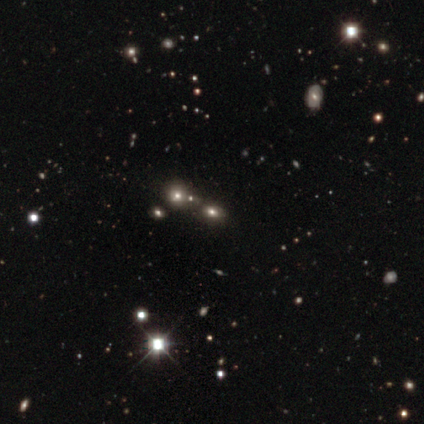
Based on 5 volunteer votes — Morphology: type=smooth (60%); roundness=round (100%); merging=none (75%).